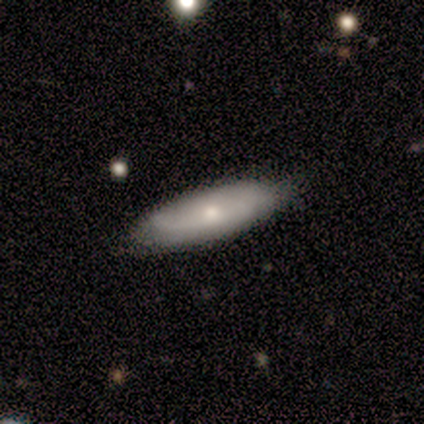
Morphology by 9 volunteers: Smooth or featured?
  - smooth: 56% *
  - featured or disk: 33%
  - star or artifact: 11%
How rounded?
  - in between: 60% *
  - cigar-shaped: 40%
  - round: 0%
Merging?
  - none: 88% *
  - minor disturbance: 12%
  - major disturbance: 0%
  - merger: 0%